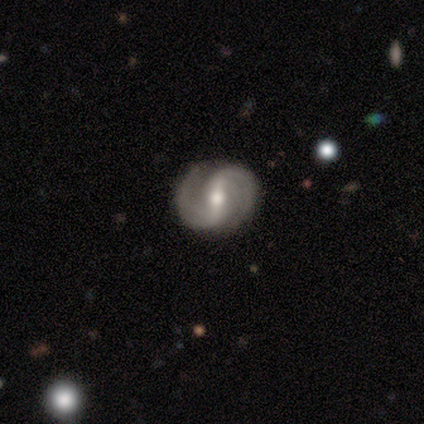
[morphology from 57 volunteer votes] Smooth or featured?
  - featured or disk: 96% *
  - smooth: 4%
  - star or artifact: 0%
Edge-on disk?
  - no: 98% *
  - yes: 2%
Bar?
  - strong: 67% *
  - weak: 26%
  - no: 7%
Spiral arms?
  - yes: 98% *
  - no: 2%
Spiral winding?
  - medium: 58% *
  - tight: 26%
  - loose: 15%
Spiral arm count?
  - 2: 91% *
  - 4: 4%
  - can't tell: 4%
  - 1: 2%
  - 3: 0%
  - more than 4: 0%
Bulge size?
  - moderate: 76% *
  - small: 19%
  - large: 6%
  - dominant: 0%
  - none: 0%
Merging?
  - none: 91% *
  - minor disturbance: 9%
  - major disturbance: 0%
  - merger: 0%